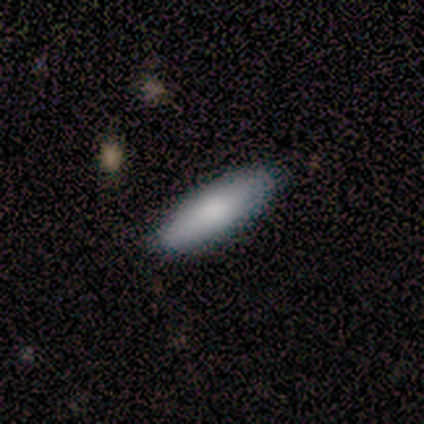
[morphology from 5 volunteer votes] smooth 80%, featured or disk 20%, star or artifact 0%. Down the decision tree: how rounded — in between (75%); merging — none (80%).